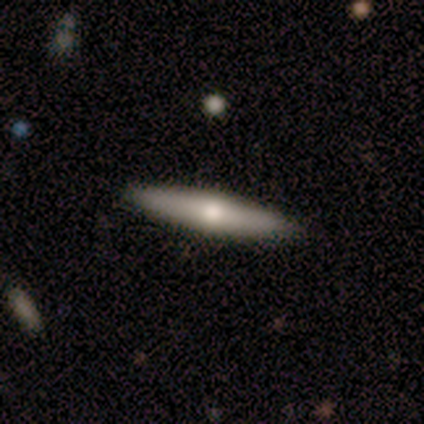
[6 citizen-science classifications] Volunteers were most divided on "smooth or featured": featured or disk: 67%, smooth: 33%, star or artifact: 0%. More confident: edge-on disk — yes (100%); edge-on bulge — rounded (100%); merging — none (100%).